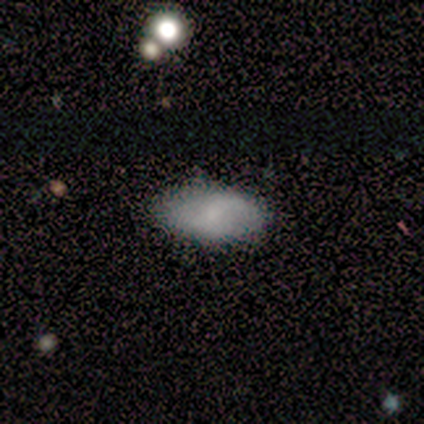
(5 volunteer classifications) A smooth galaxy with no disk features (100%) that is in between round and cigar-shaped (100%). Merging: none (80%).